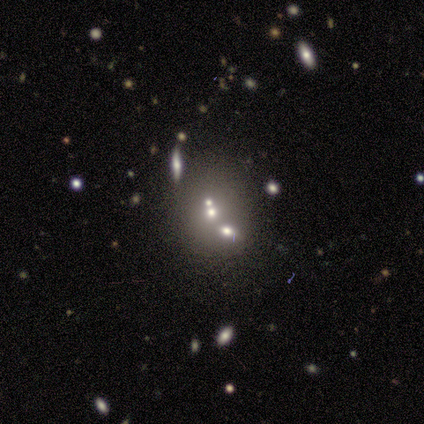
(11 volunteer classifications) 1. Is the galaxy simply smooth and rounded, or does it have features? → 36% smooth (tied), 36% star or artifact (tied), 27% featured or disk.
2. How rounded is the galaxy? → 75% round, 25% in between, 0% cigar-shaped.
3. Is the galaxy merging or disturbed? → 57% none, 43% merger, 0% minor disturbance, 0% major disturbance.